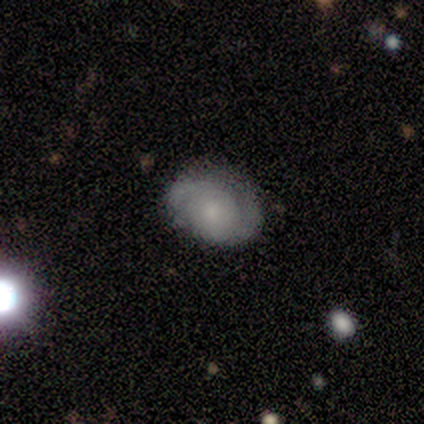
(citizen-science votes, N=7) Morphology: type=smooth (57%); roundness=round (75%); merging=none (86%).